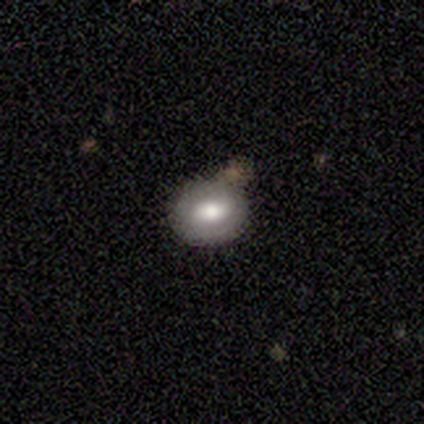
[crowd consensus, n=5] Smooth or featured? 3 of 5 (60%) said featured or disk. Edge-on disk? 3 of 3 (100%) said no. Bar? 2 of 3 (67%) said strong. Spiral arms? 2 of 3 (67%) said no. Bulge size? 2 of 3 (67%) said moderate. Merging? 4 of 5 (80%) said none.